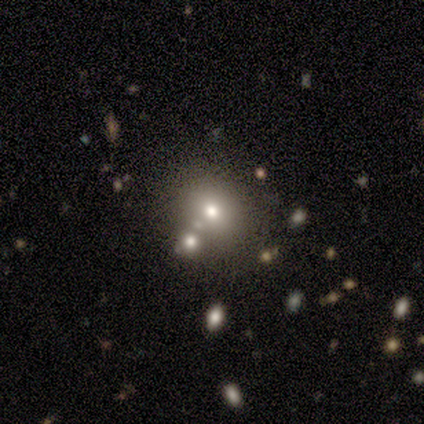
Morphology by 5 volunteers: Volunteers were most divided on "merging" (2-way tie): none: 50%, merger: 50%, minor disturbance: 0%, major disturbance: 0%. More confident: smooth or featured — smooth (80%); how rounded — round (75%).